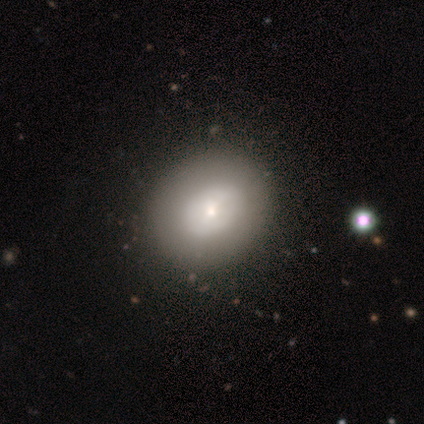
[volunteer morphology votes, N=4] A featured or disk galaxy (50%) with a weak bar (50%, tied with no), no spiral arms (100%) and a moderate central bulge (50%, tied with small). Merging: none (100%).